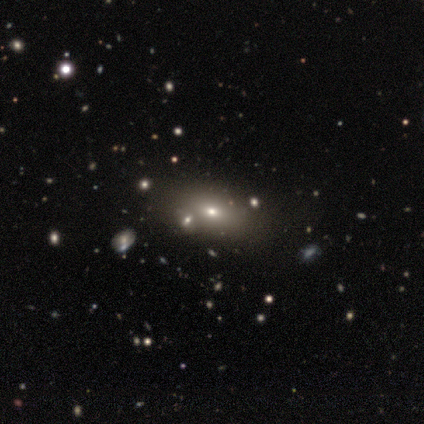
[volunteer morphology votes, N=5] smooth_or_featured: smooth (p=0.40) [tied with: featured or disk p=0.40]
how_rounded: in between (p=1.00)
merging: none (p=0.50) [tied with: merger p=0.50]